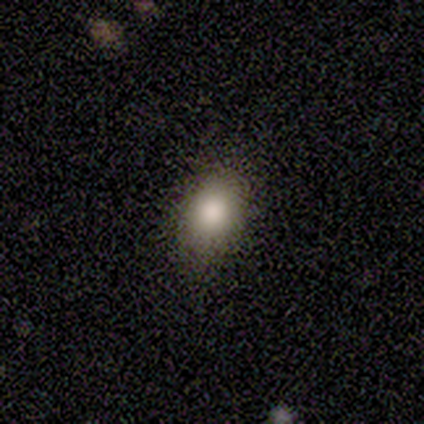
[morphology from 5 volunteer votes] A smooth galaxy with no disk features (100%) that is in between round and cigar-shaped (80%).

Vote fractions:
- Smooth or featured? smooth: 100% / featured or disk: 0% / star or artifact: 0%
- How rounded? in between: 80% / round: 20% / cigar-shaped: 0%
- Merging? none: 80% / minor disturbance: 20% / major disturbance: 0% / merger: 0%